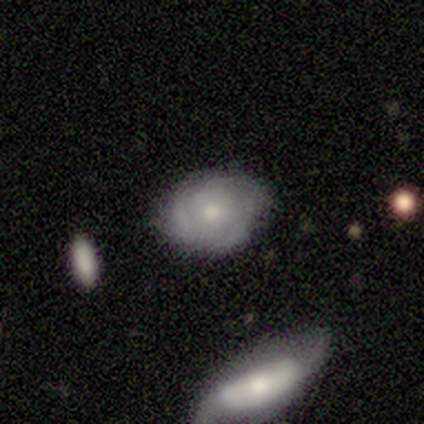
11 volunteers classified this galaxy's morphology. smooth 64%, featured or disk 27%, star or artifact 9%. Down the decision tree: how rounded — in between (57%); merging — none (60%).